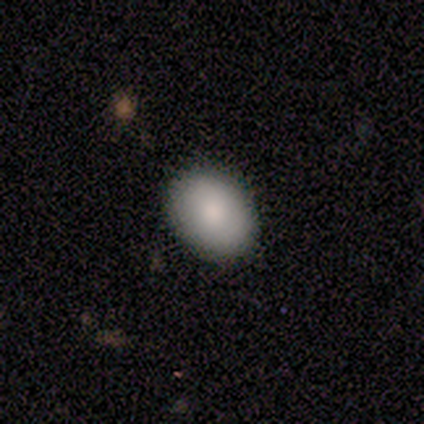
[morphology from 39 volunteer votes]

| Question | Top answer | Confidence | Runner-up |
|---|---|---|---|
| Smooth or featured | smooth | 92% | featured or disk (5%) |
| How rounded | in between | 72% | round (28%) |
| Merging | none | 95% | minor disturbance (5%) |